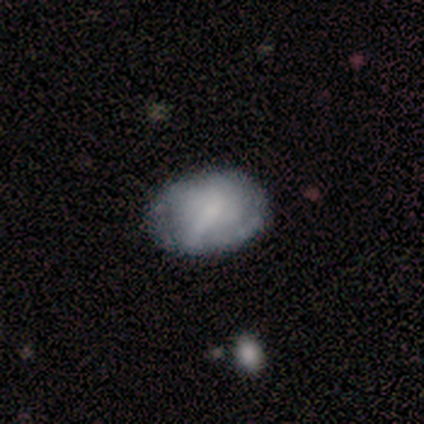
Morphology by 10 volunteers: This appears to be a smooth galaxy with no disk features (50%) that is in between round and cigar-shaped (100%). Merging: none (57%).